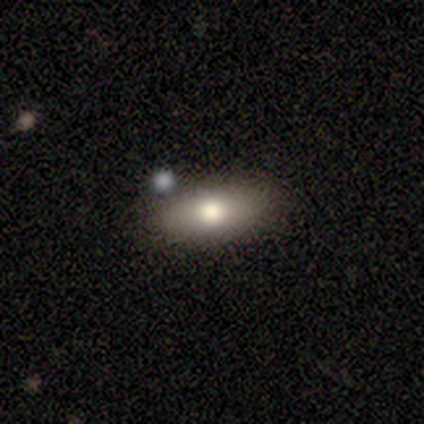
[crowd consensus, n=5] Smooth or featured? 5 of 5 (100%) said smooth. How rounded? 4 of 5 (80%) said in between. Merging? 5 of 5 (100%) said none.